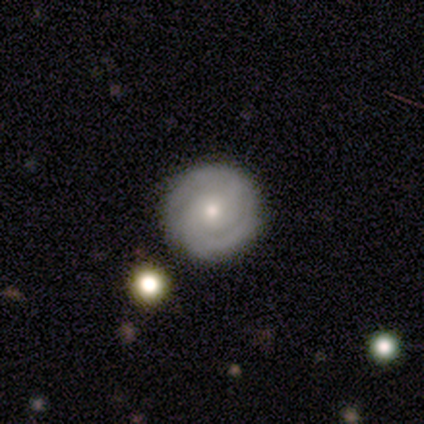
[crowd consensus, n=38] Overall: featured or disk (84%). Edge-on disk: no (100%). Bar: no (72%). Spiral arms: yes (97%). Spiral arm count: 2 (65%). Spiral winding: tight (58%; medium 39%). Bulge size: small (56%; moderate 44%). Merging: none (71%).